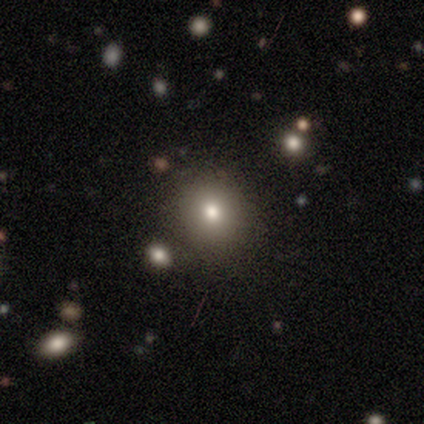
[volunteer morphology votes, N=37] A smooth galaxy with no disk features (70%) that is round (77%).

Vote fractions:
- Smooth or featured? smooth: 70% / featured or disk: 22% / star or artifact: 8%
- How rounded? round: 77% / in between: 23% / cigar-shaped: 0%
- Merging? none: 91% / minor disturbance: 9% / major disturbance: 0% / merger: 0%